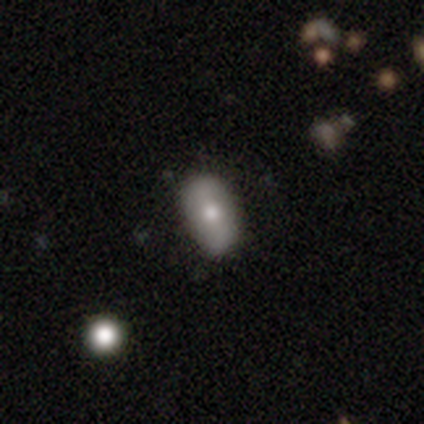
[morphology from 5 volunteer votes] A smooth galaxy with no disk features (60%) that is in between round and cigar-shaped (100%).

Vote fractions:
- Smooth or featured? smooth: 60% / featured or disk: 40% / star or artifact: 0%
- How rounded? in between: 100% / round: 0% / cigar-shaped: 0%
- Merging? none: 60% / minor disturbance: 40% / major disturbance: 0% / merger: 0%